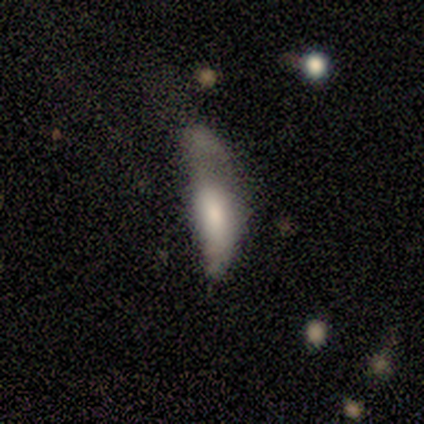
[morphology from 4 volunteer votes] Q: Smooth or featured?
A: smooth (50%); tied with: featured or disk (50%)
Q: How rounded?
A: in between (100%)
Q: Merging?
A: major disturbance (75%); runner-up: merger (25%)